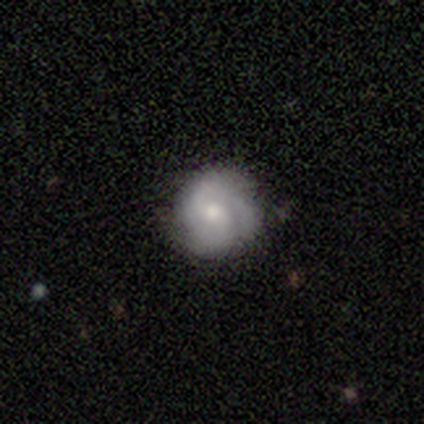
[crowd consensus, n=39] featured or disk 54%, smooth 44%, star or artifact 3%. Down the decision tree: edge-on disk — no (100%); bar — no (71%); spiral arms — yes (67%); spiral arm count — 3 (36%); spiral winding — tight (86%); bulge size — moderate (52%); merging — none (68%).